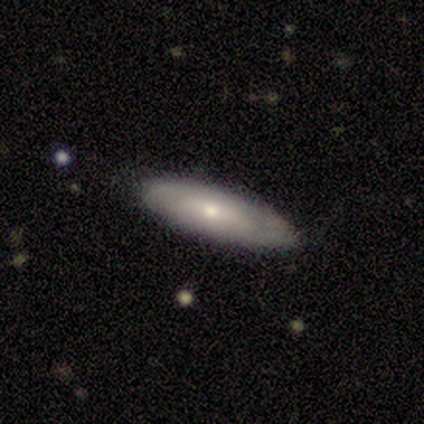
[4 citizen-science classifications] This is likely a smooth galaxy (75%). How rounded: likely cigar-shaped (67%). Merging: likely none (75%).